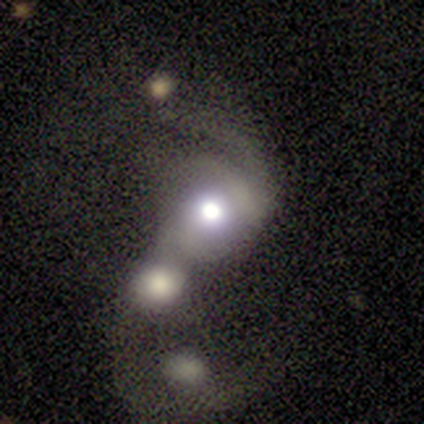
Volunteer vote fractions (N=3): A featured or disk galaxy (67%) with no bar (100%), medium (100%) spiral arms (50%, tied with no) and a large central bulge (100%). Merging: merger (67%).